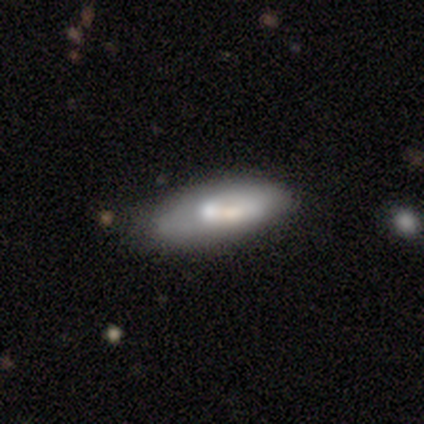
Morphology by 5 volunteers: A smooth galaxy with no disk features (60%) that is in between round and cigar-shaped (67%). Merging: none (60%).